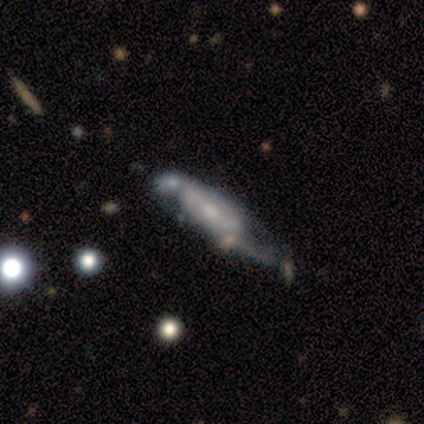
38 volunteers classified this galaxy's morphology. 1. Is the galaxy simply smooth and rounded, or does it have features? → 76% featured or disk, 13% star or artifact, 11% smooth.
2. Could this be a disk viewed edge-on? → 72% no, 28% yes.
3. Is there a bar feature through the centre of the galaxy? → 52% weak, 38% no, 10% strong.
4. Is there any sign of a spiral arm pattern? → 71% yes, 29% no.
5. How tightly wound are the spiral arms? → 60% medium, 20% tight, 20% loose.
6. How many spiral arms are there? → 67% 2, 33% can't tell, 0% 1, 0% 3, 0% 4, 0% more than 4.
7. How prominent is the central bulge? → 52% small, 38% moderate, 10% none, 0% dominant, 0% large.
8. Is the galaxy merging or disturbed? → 36% minor disturbance, 33% none, 18% major disturbance, 12% merger.